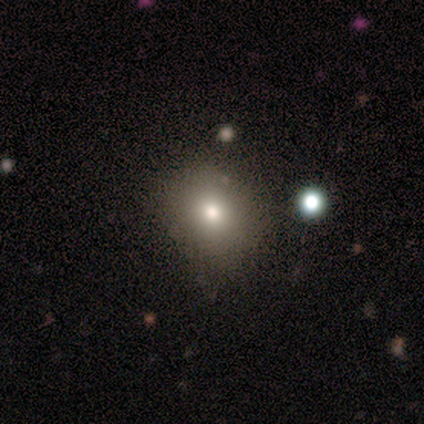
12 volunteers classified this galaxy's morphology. Volunteers were most divided on "how rounded": round: 70%, in between: 30%, cigar-shaped: 0%. More confident: merging — none (91%); smooth or featured — smooth (83%).